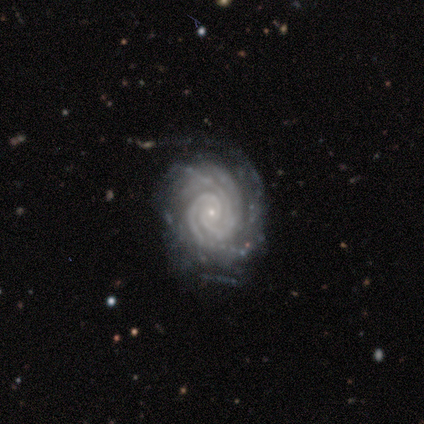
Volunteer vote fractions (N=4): A featured or disk galaxy (100%) with no bar (75%), 4 (50%) tight (100%) spiral arms (100%) and a small central bulge (75%). Merging: none (100%).